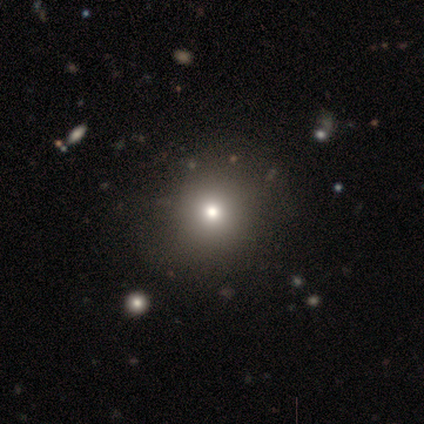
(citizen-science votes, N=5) Smooth or featured? 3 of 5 (60%) said smooth. How rounded? 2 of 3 (67%) said in between. Merging? 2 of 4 (50%) said minor disturbance.